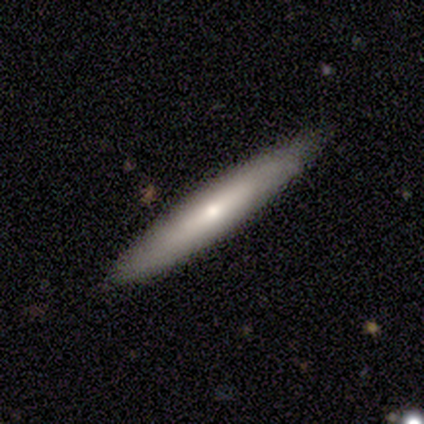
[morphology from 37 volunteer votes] smooth-or-featured: featured or disk: 49% | smooth: 43% | star or artifact: 8%
  disk-edge-on: yes: 89% | no: 11%
    edge-on-bulge: rounded: 62% | none: 31% | boxy: 6%
  merging: none: 91% | minor disturbance: 9% | major disturbance: 0% | merger: 0%